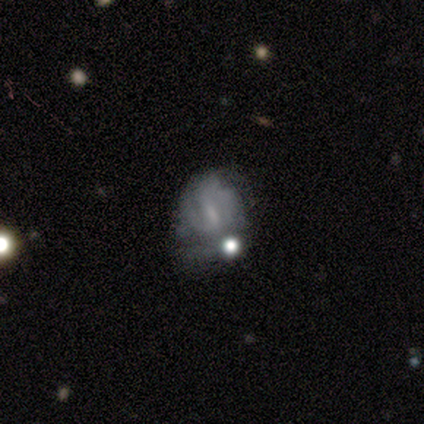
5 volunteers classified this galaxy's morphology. A smooth galaxy with no disk features (60%) that is in between round and cigar-shaped (67%).

Vote fractions:
- Smooth or featured? smooth: 60% / featured or disk: 40% / star or artifact: 0%
- How rounded? in between: 67% / round: 33% / cigar-shaped: 0%
- Merging? none: 80% / minor disturbance: 20% / major disturbance: 0% / merger: 0%